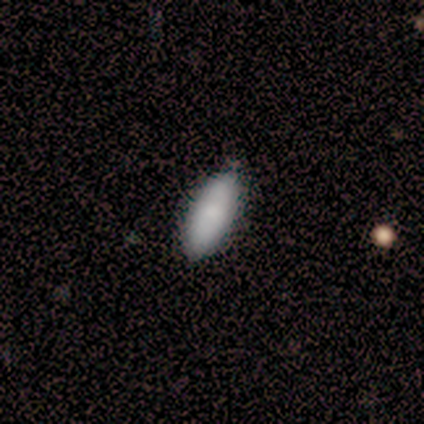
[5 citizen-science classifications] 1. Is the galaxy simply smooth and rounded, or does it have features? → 60% smooth, 20% featured or disk, 20% star or artifact.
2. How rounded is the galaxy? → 100% in between, 0% round, 0% cigar-shaped.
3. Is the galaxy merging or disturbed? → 75% none, 25% minor disturbance, 0% major disturbance, 0% merger.